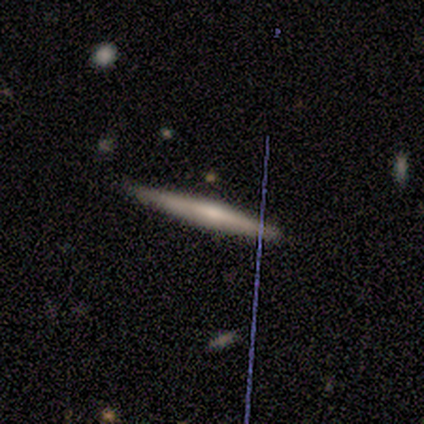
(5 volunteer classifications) A smooth galaxy with no disk features (60%) that is cigar-shaped (100%).

Vote fractions:
- Smooth or featured? smooth: 60% / featured or disk: 40% / star or artifact: 0%
- How rounded? cigar-shaped: 100% / round: 0% / in between: 0%
- Merging? none: 100% / minor disturbance: 0% / major disturbance: 0% / merger: 0%